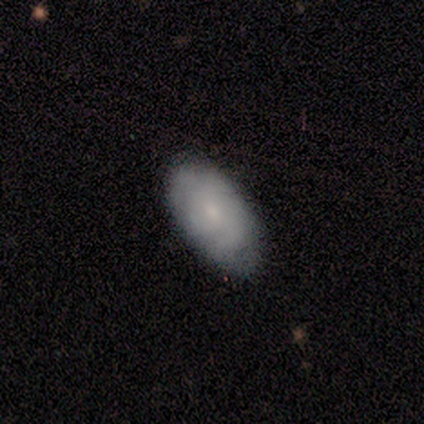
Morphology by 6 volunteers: A smooth galaxy with no disk features (67%) that is in between round and cigar-shaped (100%). Merging: none (83%).